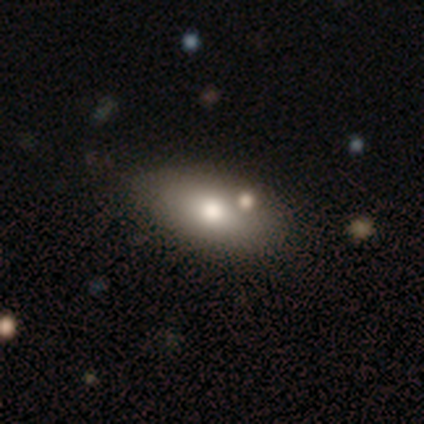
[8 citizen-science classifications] This is likely a smooth galaxy (75%). How rounded: clearly in between (100%). Merging: likely none (71%).